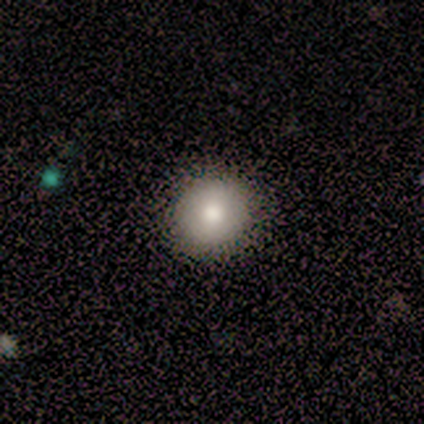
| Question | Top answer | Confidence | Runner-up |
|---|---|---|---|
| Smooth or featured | smooth | 67% | featured or disk (17%) |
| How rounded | round | 75% | in between (25%) |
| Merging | none | 90% | minor disturbance (10%) |